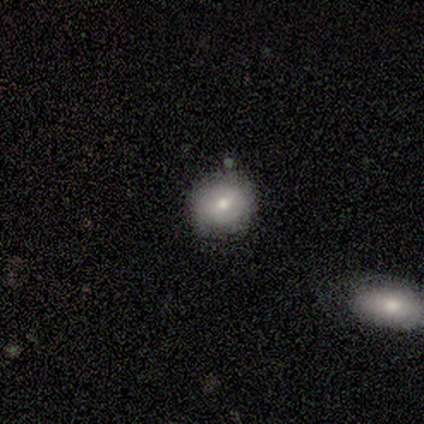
Smooth or featured?
  - smooth: 80% *
  - featured or disk: 20%
  - star or artifact: 0%
How rounded?
  - round: 100% *
  - in between: 0%
  - cigar-shaped: 0%
Merging?
  - none: 80% *
  - minor disturbance: 20%
  - major disturbance: 0%
  - merger: 0%